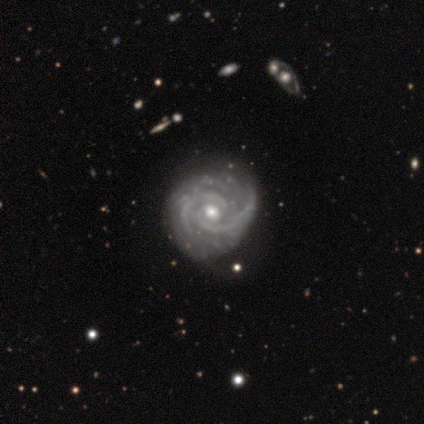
Morphology: type=featured or disk (100%); edge-on=no (100%); bar=weak (56%); spiral arms=yes (89%); winding=tight (88%); arm count=2 (62%); bulge=small (56%); merging=none (67%).